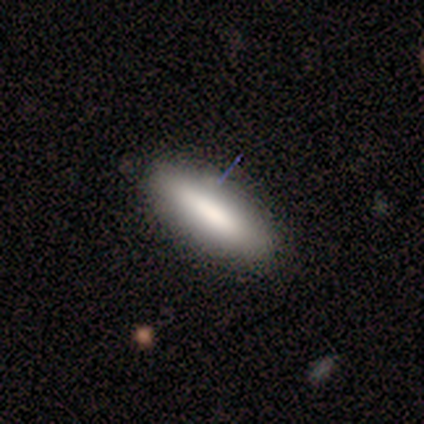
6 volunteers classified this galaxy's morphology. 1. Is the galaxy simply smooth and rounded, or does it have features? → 67% smooth, 33% featured or disk, 0% star or artifact.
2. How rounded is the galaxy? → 75% in between, 25% cigar-shaped, 0% round.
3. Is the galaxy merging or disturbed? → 67% none, 33% minor disturbance, 0% major disturbance, 0% merger.